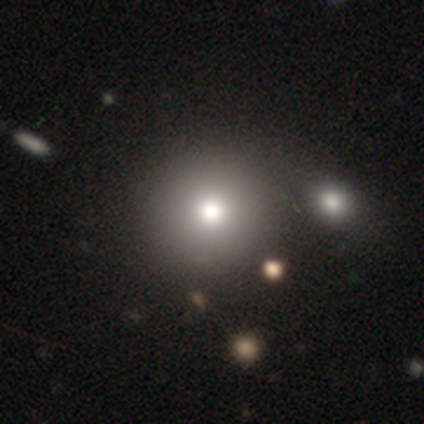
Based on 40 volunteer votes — smooth_or_featured: smooth (p=0.65) [alt: featured or disk p=0.25]
how_rounded: round (p=0.92) [alt: in between p=0.08]
merging: none (p=0.53) [alt: merger p=0.14]